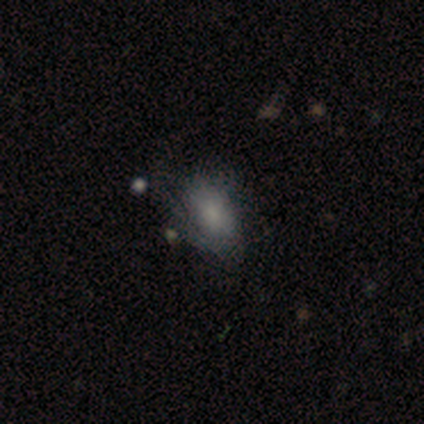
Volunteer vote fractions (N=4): Q: Smooth or featured?
A: smooth (50%); tied with: featured or disk (50%)
Q: How rounded?
A: in between (100%)
Q: Merging?
A: none (75%); runner-up: minor disturbance (25%)